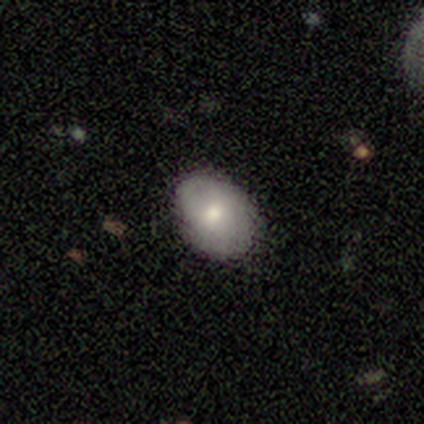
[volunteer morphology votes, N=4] smooth-or-featured: smooth: 75% | featured or disk: 25% | star or artifact: 0%
  how-rounded: in between: 100% | round: 0% | cigar-shaped: 0%
  merging: none: 75% | minor disturbance: 25% | major disturbance: 0% | merger: 0%